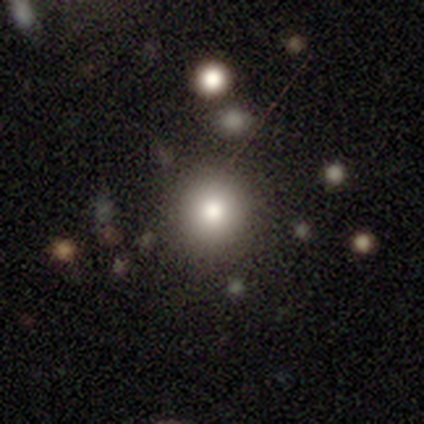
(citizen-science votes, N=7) Smooth or featured? smooth (86%)
How rounded? round (100%)
Merging? none (83%)